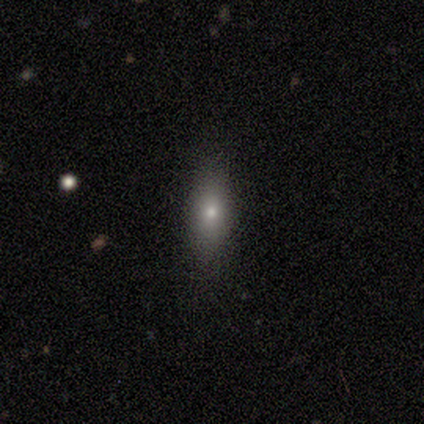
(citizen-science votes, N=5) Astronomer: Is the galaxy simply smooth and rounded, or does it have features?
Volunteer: smooth — 60%.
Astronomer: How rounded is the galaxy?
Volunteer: in between — 67%.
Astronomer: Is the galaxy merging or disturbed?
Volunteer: none — 75%.